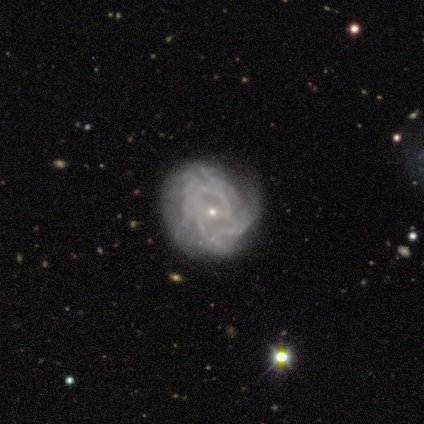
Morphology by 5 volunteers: A featured or disk galaxy (80%) with no bar (50%), 1 (33%, tied with more than 4 and can't tell) medium (67%) spiral arms (75%) and a small central bulge (100%).

Vote fractions:
- Smooth or featured? featured or disk: 80% / star or artifact: 20% / smooth: 0%
- Edge-on disk? no: 100% / yes: 0%
- Bar? no: 50% / strong: 25% / weak: 25%
- Spiral arms? yes: 75% / no: 25%
- Spiral winding? medium: 67% / tight: 33% / loose: 0%
- Spiral arm count? 1: 33% (tied) / more than 4: 33% (tied) / can't tell: 33% (tied) / 2: 0% / 3: 0% / 4: 0%
- Bulge size? small: 100% / dominant: 0% / large: 0% / moderate: 0% / none: 0%
- Merging? none: 50% (tied) / minor disturbance: 50% (tied) / major disturbance: 0% / merger: 0%